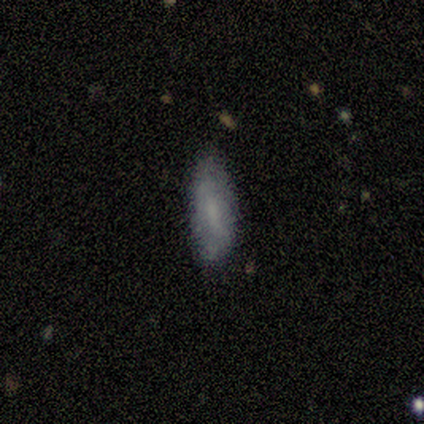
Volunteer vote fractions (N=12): Smooth or featured? 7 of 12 (58%) said smooth. How rounded? 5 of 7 (71%) said in between. Merging? 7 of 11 (64%) said none.